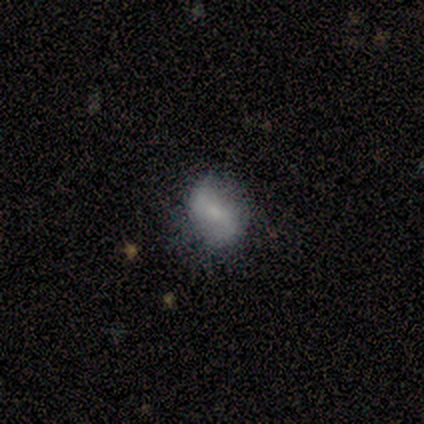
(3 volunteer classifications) Smooth or featured?
  - featured or disk: 100% *
  - smooth: 0%
  - star or artifact: 0%
Edge-on disk?
  - no: 100% *
  - yes: 0%
Bar?
  - no: 67% *
  - weak: 33%
  - strong: 0%
Spiral arms?
  - yes: 67% *
  - no: 33%
Spiral winding?
  - loose: 100% *
  - tight: 0%
  - medium: 0%
Spiral arm count?
  - 2: 100% *
  - 1: 0%
  - 3: 0%
  - 4: 0%
  - more than 4: 0%
  - can't tell: 0%
Bulge size?
  - small: 100% *
  - dominant: 0%
  - large: 0%
  - moderate: 0%
  - none: 0%
Merging?
  - none: 100% *
  - minor disturbance: 0%
  - major disturbance: 0%
  - merger: 0%